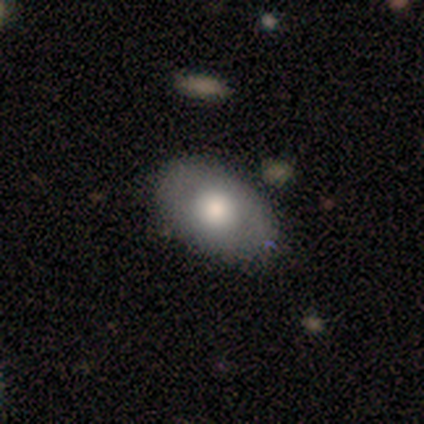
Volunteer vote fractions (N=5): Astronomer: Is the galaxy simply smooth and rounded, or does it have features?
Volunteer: smooth — 40%, tied with star or artifact at 40%.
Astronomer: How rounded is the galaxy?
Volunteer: in between — 100%.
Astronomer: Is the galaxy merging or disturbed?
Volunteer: none — 100%.